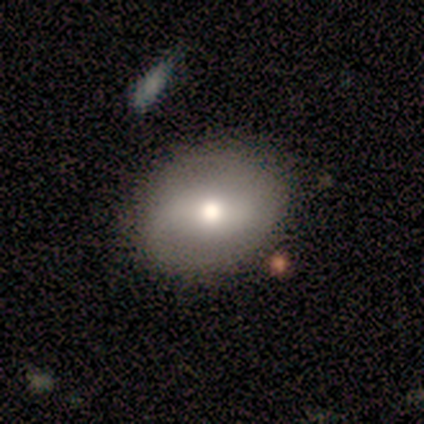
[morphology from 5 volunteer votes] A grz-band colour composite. It shows a smooth galaxy with no disk features (60%) that is in between round and cigar-shaped (100%). Merging: none (80%).